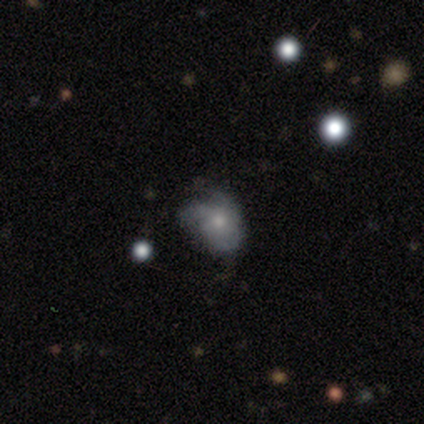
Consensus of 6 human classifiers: A featured or disk galaxy (100%) with no bar (100%), 3 (40%, tied with can't tell) medium (80%) spiral arms (83%) and a moderate central bulge (50%). Merging: none (67%).